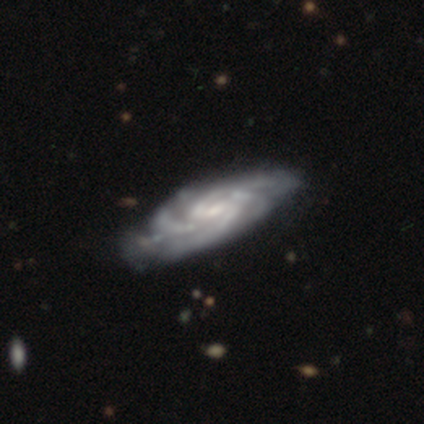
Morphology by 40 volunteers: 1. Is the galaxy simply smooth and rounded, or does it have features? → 88% featured or disk, 10% star or artifact, 2% smooth.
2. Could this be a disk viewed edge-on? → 86% no, 14% yes.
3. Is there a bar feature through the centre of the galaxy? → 53% weak, 23% strong, 23% no.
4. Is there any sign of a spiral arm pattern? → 100% yes, 0% no.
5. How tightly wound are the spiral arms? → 50% medium, 40% tight, 10% loose.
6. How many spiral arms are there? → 43% 4, 20% 3, 17% 2, 17% can't tell, 3% more than 4, 0% 1.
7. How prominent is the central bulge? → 57% small, 33% moderate, 7% large, 3% none, 0% dominant.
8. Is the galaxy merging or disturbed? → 42% none, 17% minor disturbance, 8% major disturbance, 6% merger.